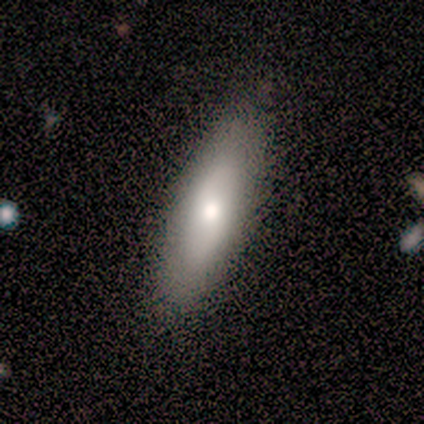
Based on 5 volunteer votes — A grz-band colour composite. It shows a smooth galaxy with no disk features (80%) that is in between round and cigar-shaped (75%). Merging: none (80%).